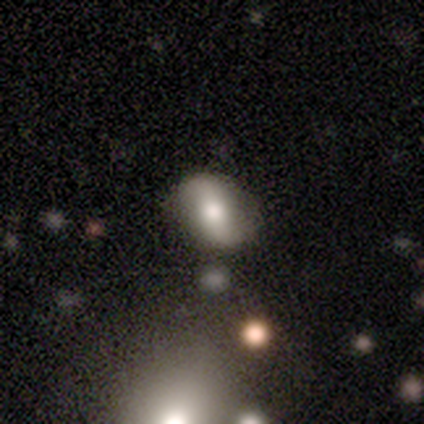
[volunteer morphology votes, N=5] This appears to be a featured or disk galaxy (60%) with a weak bar (100%), 2 (100%) loose (100%) spiral arms (100%) and a small central bulge (67%). Merging: none (80%).